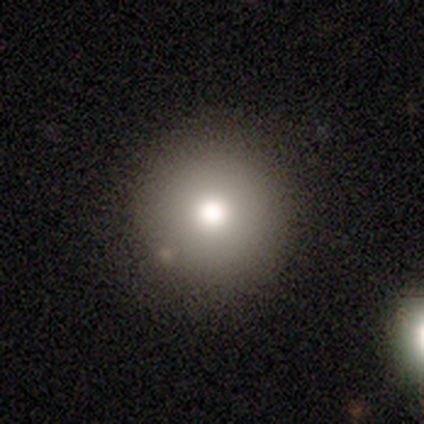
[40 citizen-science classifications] Q: Smooth or featured?
A: smooth (75%); runner-up: star or artifact (20%)
Q: How rounded?
A: round (100%)
Q: Merging?
A: none (91%); runner-up: major disturbance (6%)